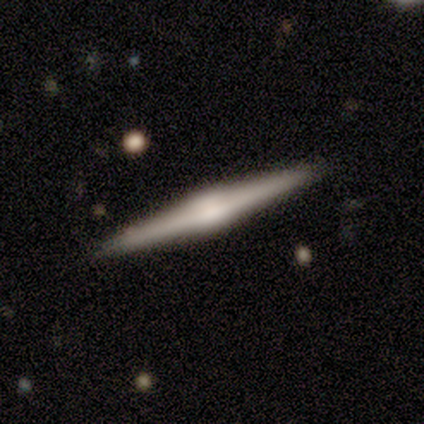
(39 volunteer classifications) Volunteers were most divided on "edge-on bulge": rounded: 71%, boxy: 26%, none: 3%. More confident: edge-on disk — yes (100%); merging — none (95%); smooth or featured — featured or disk (79%).